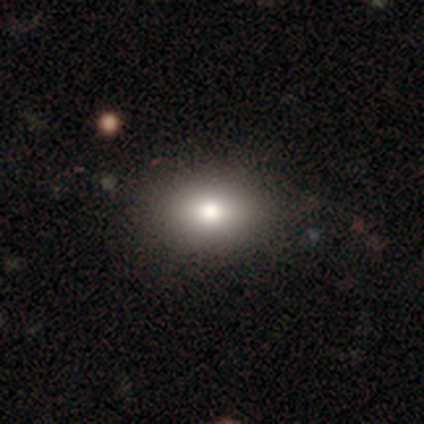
smooth_or_featured: smooth (p=0.80) [alt: star or artifact p=0.20]
how_rounded: round (p=0.50) [tied with: in between p=0.50]
merging: none (p=1.00)